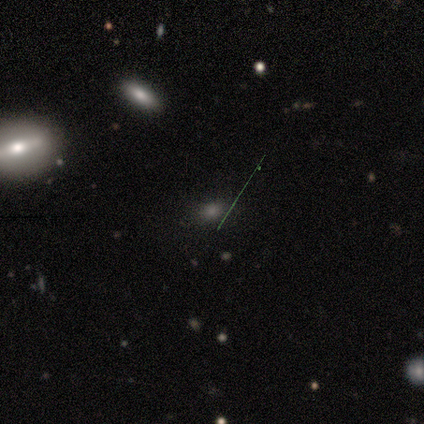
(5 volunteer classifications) Volunteers were most divided on "smooth or featured" (2-way tie): smooth: 40%, star or artifact: 40%, featured or disk: 20%. More confident: how rounded — in between (100%); merging — none (67%).